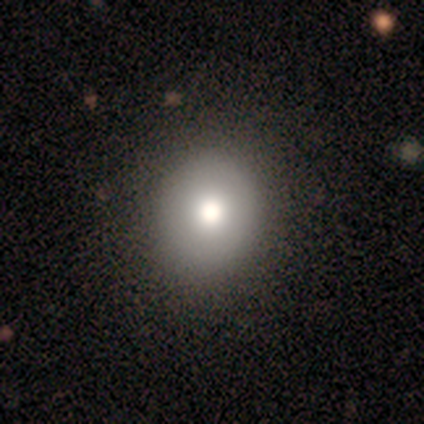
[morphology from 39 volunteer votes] Smooth or featured?
  - smooth: 90% *
  - star or artifact: 8%
  - featured or disk: 3%
How rounded?
  - round: 74% *
  - in between: 26%
  - cigar-shaped: 0%
Merging?
  - none: 61% *
  - minor disturbance: 6%
  - merger: 3%
  - major disturbance: 0%